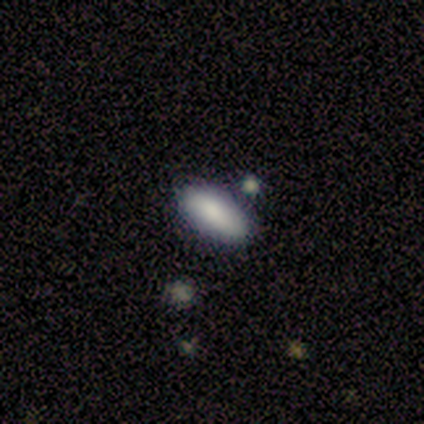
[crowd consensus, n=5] Smooth or featured?
  - smooth: 60% *
  - featured or disk: 20%
  - star or artifact: 20%
How rounded?
  - in between: 100% *
  - round: 0%
  - cigar-shaped: 0%
Merging?
  - none: 75% *
  - minor disturbance: 25%
  - major disturbance: 0%
  - merger: 0%